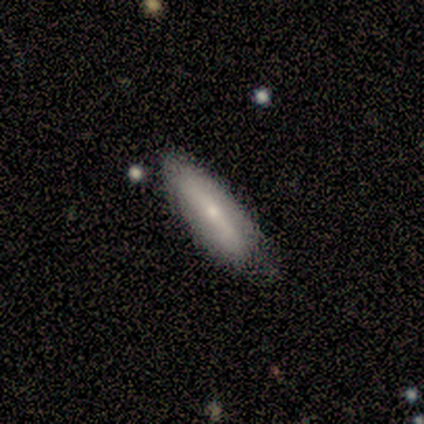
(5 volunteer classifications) featured or disk 60%, smooth 40%, star or artifact 0%. Down the decision tree: edge-on disk — yes (100%); edge-on bulge — rounded (67%); merging — none (60%).